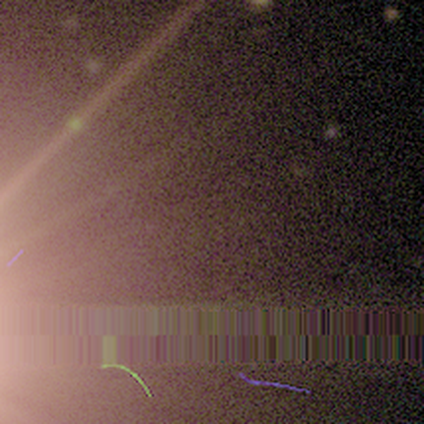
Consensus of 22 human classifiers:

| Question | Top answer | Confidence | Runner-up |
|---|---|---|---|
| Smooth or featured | star or artifact | 91% | smooth (5%) |